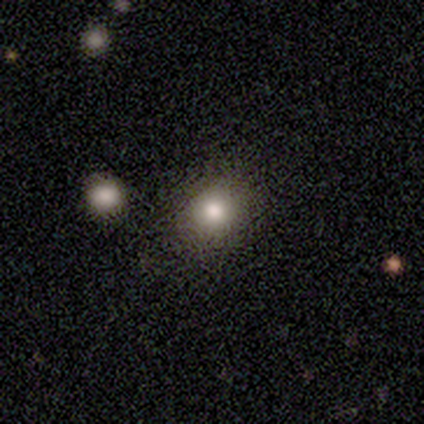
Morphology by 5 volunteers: Smooth or featured?
  - smooth: 80% *
  - featured or disk: 20%
  - star or artifact: 0%
How rounded?
  - round: 100% *
  - in between: 0%
  - cigar-shaped: 0%
Merging?
  - none: 100% *
  - minor disturbance: 0%
  - major disturbance: 0%
  - merger: 0%